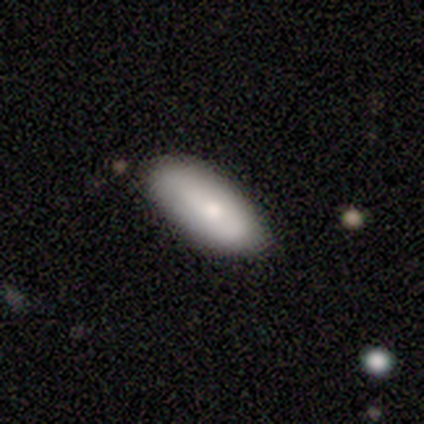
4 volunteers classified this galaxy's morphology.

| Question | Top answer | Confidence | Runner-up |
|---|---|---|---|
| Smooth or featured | smooth | 50% | featured or disk (25%) |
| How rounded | in between | 100% | — |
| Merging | none | 100% | — |